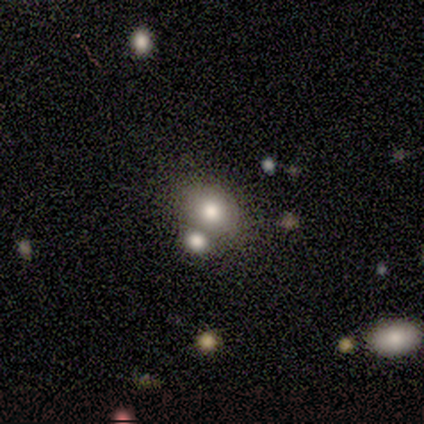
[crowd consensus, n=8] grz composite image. It shows a smooth galaxy with no disk features (75%) that is round (67%). Merging: none (33%, tied with minor disturbance and merger).